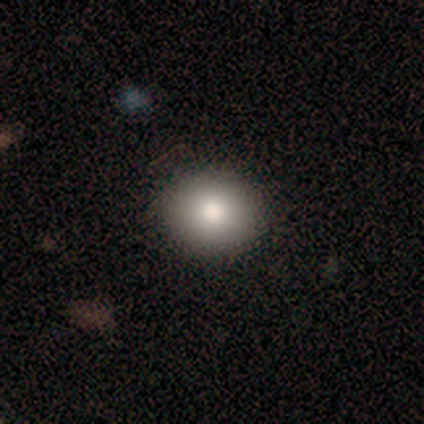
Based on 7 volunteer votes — Smooth or featured: smooth — 71% (featured or disk — 29%)
How rounded: round — 80% (in between — 20%)
Merging: none — 86% (minor disturbance — 14%)